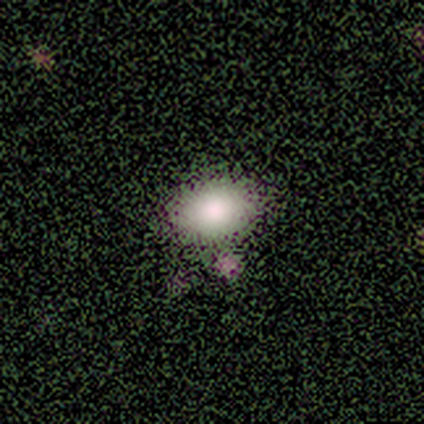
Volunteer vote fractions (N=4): smooth-or-featured: smooth: 100% | featured or disk: 0% | star or artifact: 0%
  how-rounded: in between: 75% | round: 25% | cigar-shaped: 0%
  merging: none: 100% | minor disturbance: 0% | major disturbance: 0% | merger: 0%